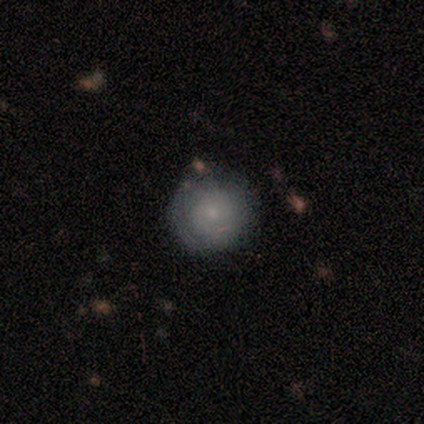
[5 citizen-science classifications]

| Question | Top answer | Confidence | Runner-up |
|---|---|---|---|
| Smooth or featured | featured or disk | 60% | smooth (40%) |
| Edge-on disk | no | 100% | — |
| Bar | no | 100% | — |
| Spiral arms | no | 67% | yes (33%) |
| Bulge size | none | 67% | small (33%) |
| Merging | none | 80% | minor disturbance (20%) |